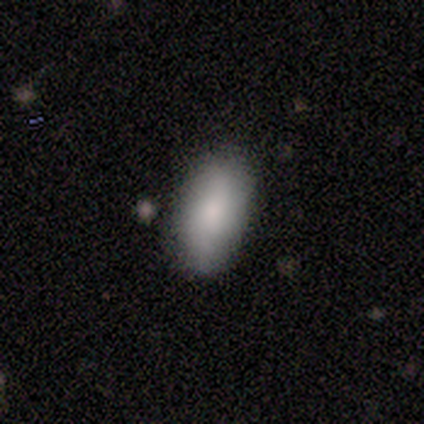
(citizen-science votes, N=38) Morphology: type=smooth (84%); roundness=in between (88%); merging=none (75%).